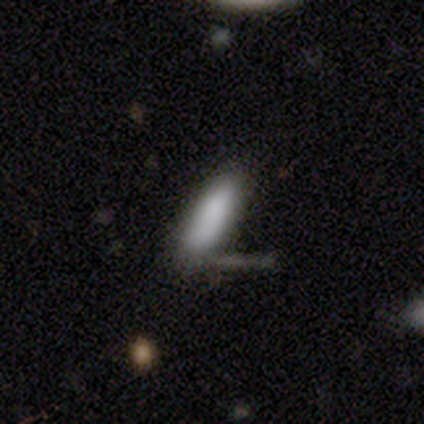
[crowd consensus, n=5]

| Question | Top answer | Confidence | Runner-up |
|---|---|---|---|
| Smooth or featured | smooth | 80% | featured or disk (20%) |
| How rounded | cigar-shaped | 75% | in between (25%) |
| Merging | merger | 60% | none (40%) |